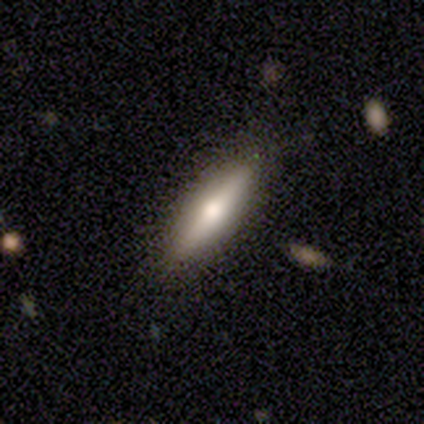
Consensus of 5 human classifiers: Smooth or featured? smooth (80%)
How rounded? in between (50%, tied with cigar-shaped)
Merging? none (80%)